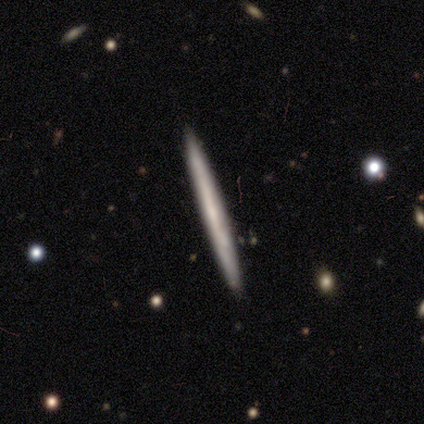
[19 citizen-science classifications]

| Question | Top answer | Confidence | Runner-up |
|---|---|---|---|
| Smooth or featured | smooth | 58% | featured or disk (37%) |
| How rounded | cigar-shaped | 100% | — |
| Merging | none | 94% | minor disturbance (6%) |